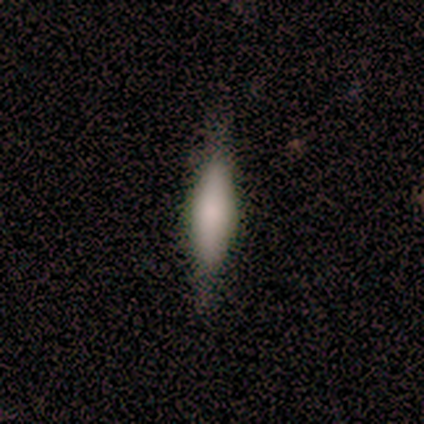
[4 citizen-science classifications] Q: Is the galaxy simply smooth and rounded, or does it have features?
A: smooth — 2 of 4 (50%, tied with featured or disk).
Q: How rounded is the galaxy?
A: in between — 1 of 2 (50%, tied with cigar-shaped).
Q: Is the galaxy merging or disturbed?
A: none — 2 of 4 (50%).